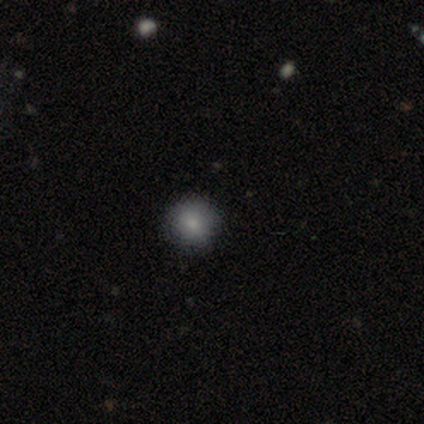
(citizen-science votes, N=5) This is marginally a smooth galaxy (40%, tied with star or artifact). How rounded: clearly round (100%). Merging: clearly none (100%).